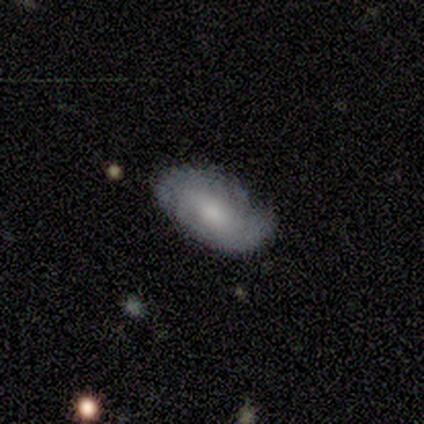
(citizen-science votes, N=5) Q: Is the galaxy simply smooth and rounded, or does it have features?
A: featured or disk — 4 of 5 (80%).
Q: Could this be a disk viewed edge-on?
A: no — 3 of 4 (75%).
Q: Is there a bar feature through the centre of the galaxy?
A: no — 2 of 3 (67%).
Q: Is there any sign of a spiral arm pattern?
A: yes — 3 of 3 (100%).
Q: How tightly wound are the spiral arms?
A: tight — 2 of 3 (67%).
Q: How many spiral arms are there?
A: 2 — 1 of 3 (33%, tied with 4 and can't tell).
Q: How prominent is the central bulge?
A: moderate — 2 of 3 (67%).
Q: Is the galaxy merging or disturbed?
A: none — 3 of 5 (60%).